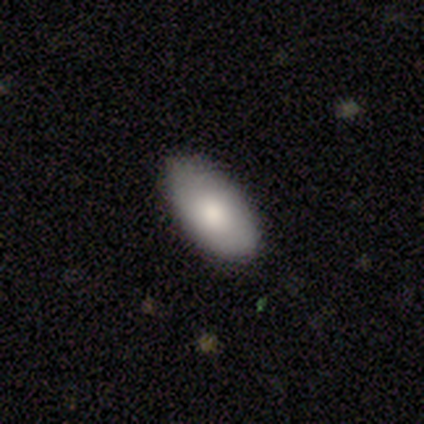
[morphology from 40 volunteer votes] Volunteers were most divided on "smooth or featured": smooth: 82%, featured or disk: 10%, star or artifact: 8%. More confident: how rounded — in between (94%); merging — none (92%).